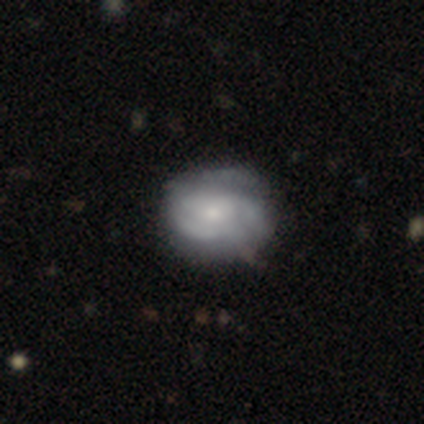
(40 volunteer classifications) smooth-or-featured: featured or disk: 62% | smooth: 30% | star or artifact: 8%
  disk-edge-on: no: 100% | yes: 0%
    bar: no: 88% | weak: 12% | strong: 0%
    has-spiral-arms: yes: 84% | no: 16%
      spiral-winding: tight: 48% | medium: 29% | loose: 24%
      spiral-arm-count: can't tell: 48% | 2: 29% | 3: 24% | 1: 0% | 4: 0% | more than 4: 0%
    bulge-size: small: 52% | moderate: 40% | dominant: 4% | none: 4% | large: 0%
  merging: none: 73% | minor disturbance: 24% | major disturbance: 3% | merger: 0%